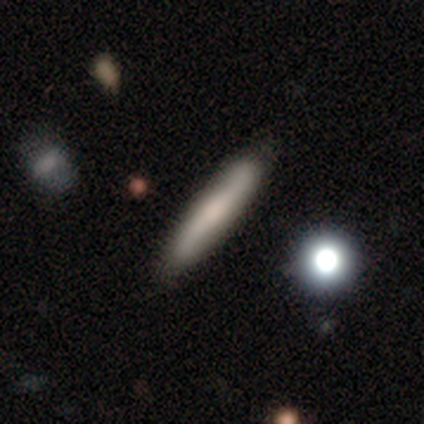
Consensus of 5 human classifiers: Volunteers were most divided on "smooth or featured": featured or disk: 60%, smooth: 40%, star or artifact: 0%. More confident: edge-on bulge — none (100%); edge-on disk — yes (67%); merging — none (60%).